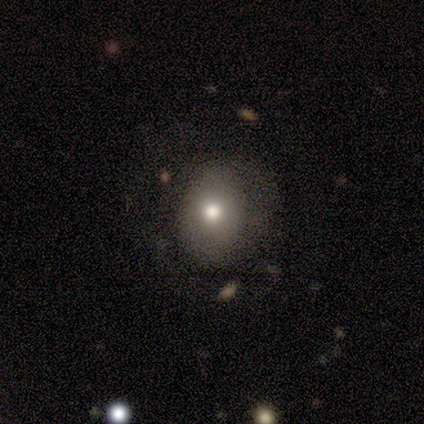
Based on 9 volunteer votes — Smooth or featured: smooth — 67% (featured or disk — 22%)
How rounded: round — 83% (in between — 17%)
Merging: none — 50% (minor disturbance — 25%)